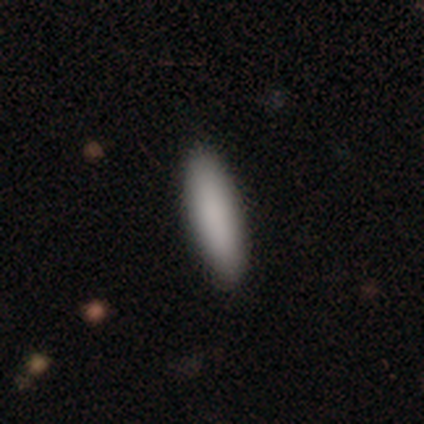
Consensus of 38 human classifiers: smooth 89%, featured or disk 5%, star or artifact 5%. Down the decision tree: how rounded — cigar-shaped (68%); merging — none (97%).